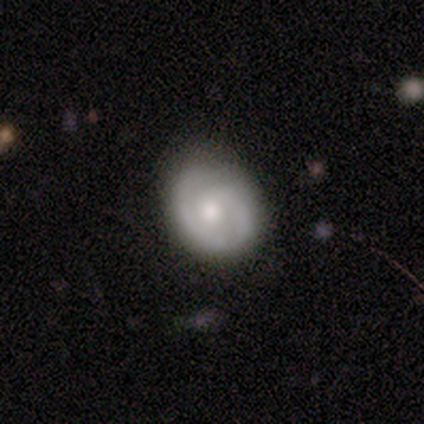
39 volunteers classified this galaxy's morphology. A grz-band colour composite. It shows a featured or disk galaxy (59%) with a weak bar (55%), 2 (55%) tight (64%) spiral arms (100%) and a moderate central bulge (50%). Merging: none (79%).